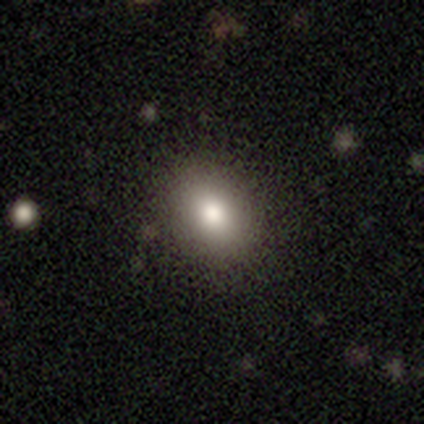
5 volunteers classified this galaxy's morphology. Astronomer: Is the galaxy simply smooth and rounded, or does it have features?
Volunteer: smooth — 80%.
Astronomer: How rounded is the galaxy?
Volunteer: round — 50%, tied with in between at 50%.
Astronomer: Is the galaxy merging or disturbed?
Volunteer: none — 80%.